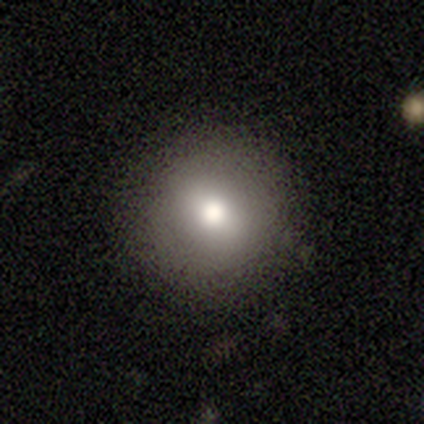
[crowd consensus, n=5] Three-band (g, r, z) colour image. It shows a smooth galaxy with no disk features (80%) that is round (75%). Merging: none (100%).